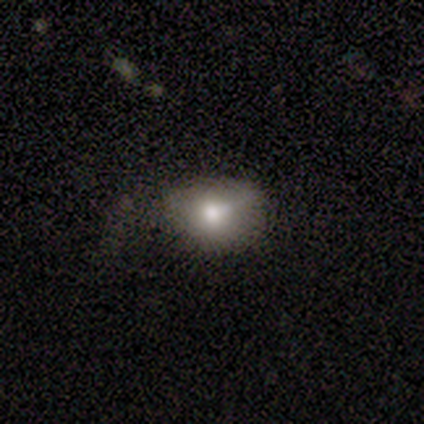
This is clearly a smooth galaxy (80%). How rounded: likely in between (75%). Merging: clearly none (100%).